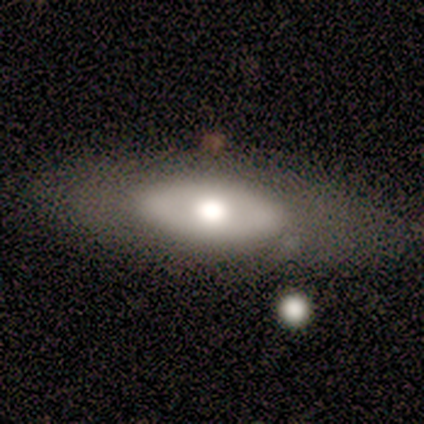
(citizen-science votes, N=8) Morphology: type=featured or disk (75%); edge-on=no (67%); bar=no (100%); spiral arms=no (100%); bulge=moderate (50%); merging=none (88%).